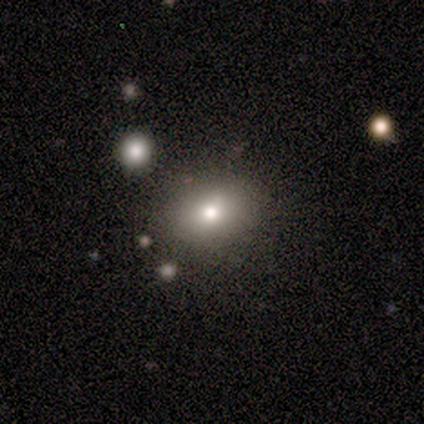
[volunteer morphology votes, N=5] Smooth or featured? smooth (60%)
How rounded? round (67%)
Merging? none (75%)